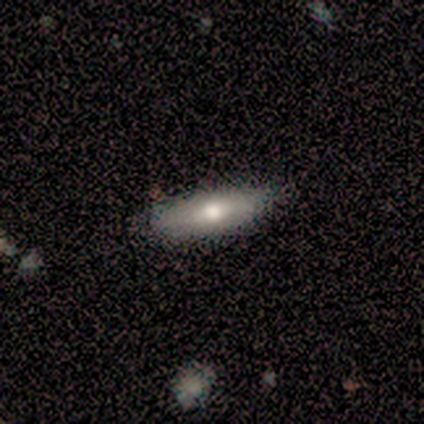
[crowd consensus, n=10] Smooth or featured? 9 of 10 (90%) said smooth. How rounded? 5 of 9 (56%) said cigar-shaped. Merging? 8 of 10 (80%) said none.